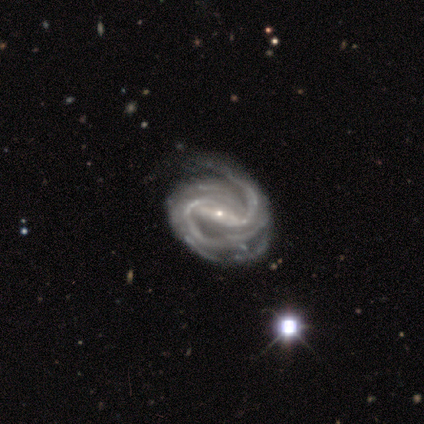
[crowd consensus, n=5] This appears to be a featured or disk galaxy (100%) with a strong bar (100%), 2 (80%) medium (60%) spiral arms (100%) and a small central bulge (100%). Merging: none (60%).